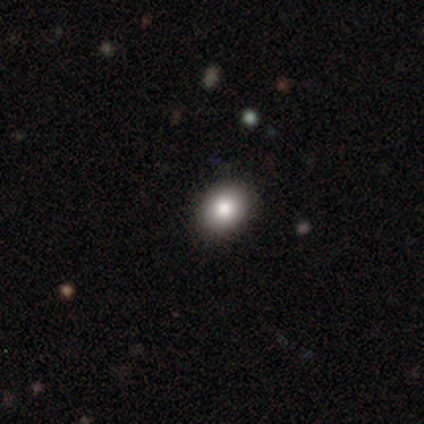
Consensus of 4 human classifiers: smooth_or_featured: smooth (p=1.00)
how_rounded: round (p=0.50) [tied with: in between p=0.50]
merging: none (p=0.75) [alt: minor disturbance p=0.25]